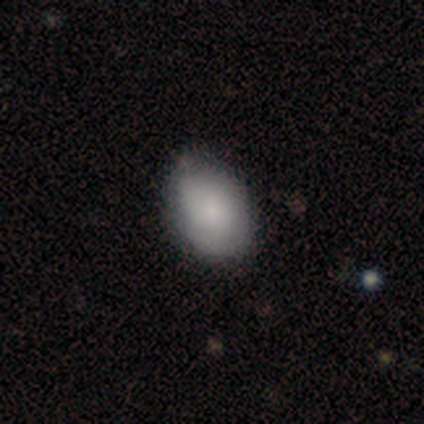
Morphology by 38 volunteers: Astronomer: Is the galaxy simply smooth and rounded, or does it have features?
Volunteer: smooth — 63%.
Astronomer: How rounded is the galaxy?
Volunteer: in between — 88%.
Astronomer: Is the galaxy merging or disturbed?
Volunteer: none — 58%.